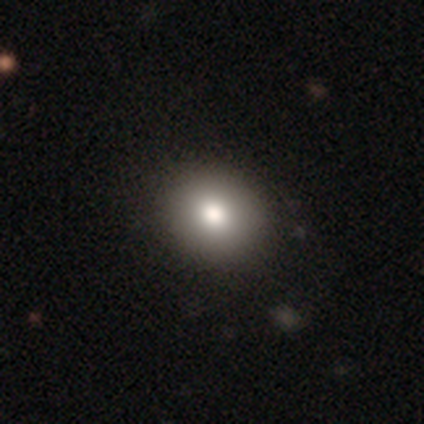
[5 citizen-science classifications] A smooth galaxy with no disk features (100%) that is round (80%).

Vote fractions:
- Smooth or featured? smooth: 100% / featured or disk: 0% / star or artifact: 0%
- How rounded? round: 80% / in between: 20% / cigar-shaped: 0%
- Merging? none: 100% / minor disturbance: 0% / major disturbance: 0% / merger: 0%